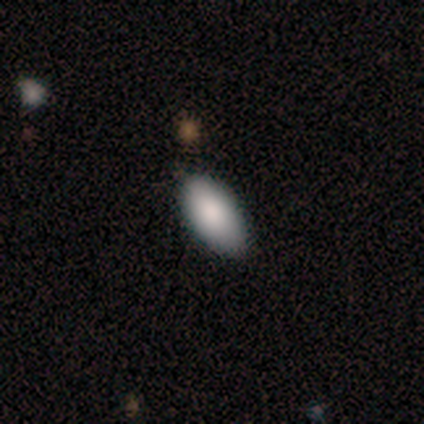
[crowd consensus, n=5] Smooth or featured? smooth (80%)
How rounded? in between (75%)
Merging? none (100%)